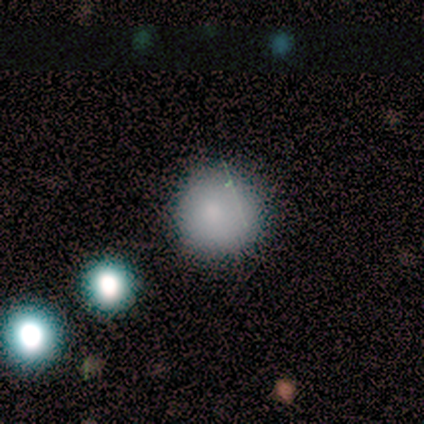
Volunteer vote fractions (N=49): This is likely a smooth galaxy (78%). How rounded: clearly round (100%). Merging: clearly none (86%).